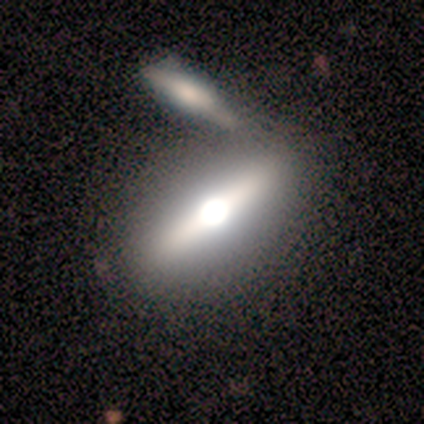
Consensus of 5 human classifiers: smooth-or-featured: featured or disk: 60% | smooth: 40% | star or artifact: 0%
  disk-edge-on: yes: 67% | no: 33%
    edge-on-bulge: rounded: 100% | boxy: 0% | none: 0%
  merging: minor disturbance: 40% | none: 20% | major disturbance: 20% | merger: 20%